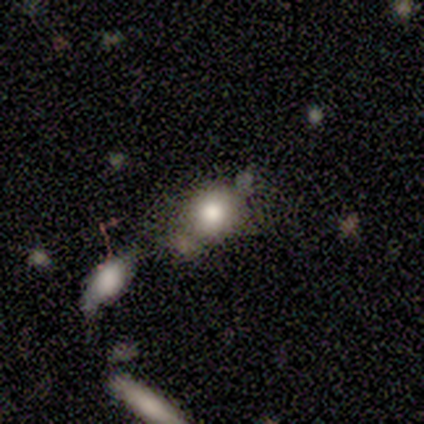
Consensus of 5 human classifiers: Smooth or featured?
  - smooth: 80% *
  - star or artifact: 20%
  - featured or disk: 0%
How rounded?
  - round: 75% *
  - in between: 25%
  - cigar-shaped: 0%
Merging?
  - none: 100% *
  - minor disturbance: 0%
  - major disturbance: 0%
  - merger: 0%